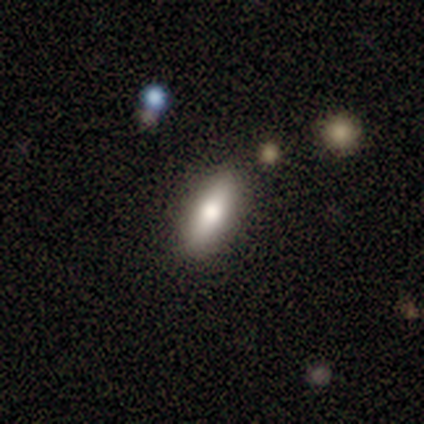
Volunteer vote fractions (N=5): Smooth or featured: smooth — 100%
How rounded: cigar-shaped — 80% (in between — 20%)
Merging: none — 100%